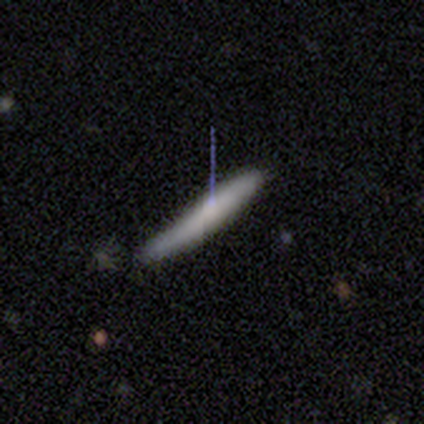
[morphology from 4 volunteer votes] Volunteers were most divided on "merging" (2-way tie): none: 50%, minor disturbance: 50%, major disturbance: 0%, merger: 0%. More confident: how rounded — cigar-shaped (100%); smooth or featured — smooth (75%).